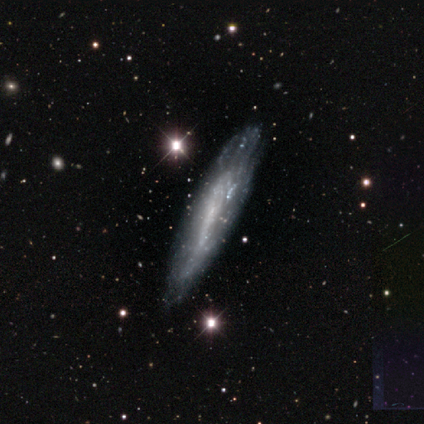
A smooth galaxy with no disk features (60%) that is in between round and cigar-shaped (67%).

Vote fractions:
- Smooth or featured? smooth: 60% / featured or disk: 40% / star or artifact: 0%
- How rounded? in between: 67% / cigar-shaped: 33% / round: 0%
- Merging? none: 80% / minor disturbance: 20% / major disturbance: 0% / merger: 0%